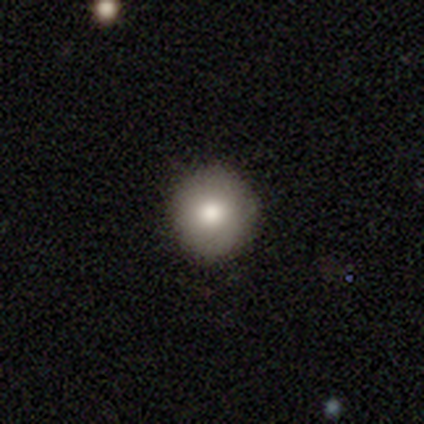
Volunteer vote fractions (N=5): A smooth galaxy with no disk features (100%) that is round (100%).

Vote fractions:
- Smooth or featured? smooth: 100% / featured or disk: 0% / star or artifact: 0%
- How rounded? round: 100% / in between: 0% / cigar-shaped: 0%
- Merging? none: 80% / minor disturbance: 20% / major disturbance: 0% / merger: 0%